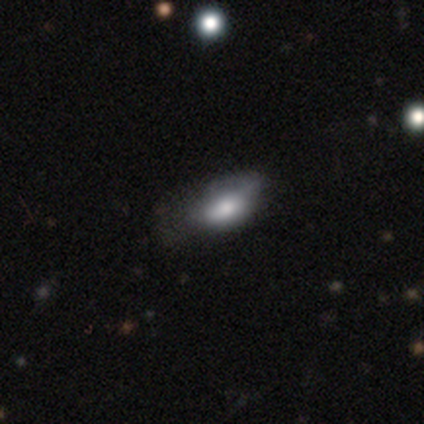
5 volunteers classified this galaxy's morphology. Overall: smooth (40%, tied with featured or disk). How rounded: in between (100%). Merging: minor disturbance (50%, tied with major disturbance).